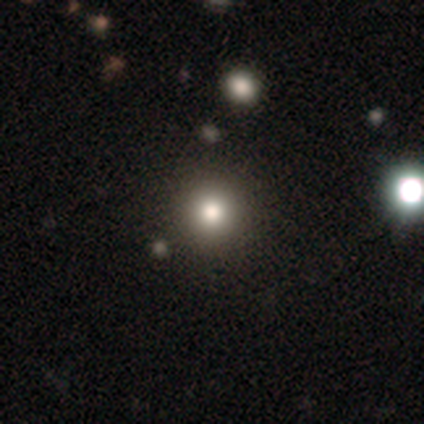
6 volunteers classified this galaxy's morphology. A smooth galaxy with no disk features (50%) that is round (100%).

Vote fractions:
- Smooth or featured? smooth: 50% / featured or disk: 33% / star or artifact: 17%
- How rounded? round: 100% / in between: 0% / cigar-shaped: 0%
- Merging? none: 100% / minor disturbance: 0% / major disturbance: 0% / merger: 0%